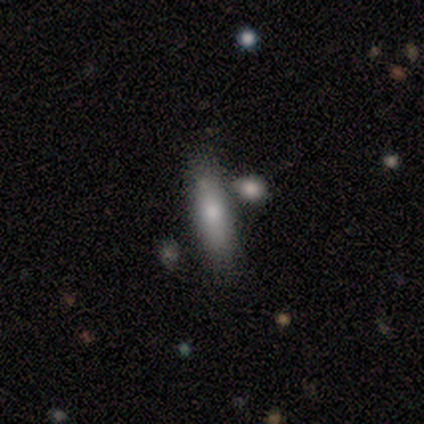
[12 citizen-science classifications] smooth_or_featured: smooth (p=0.67) [alt: featured or disk p=0.33]
how_rounded: in between (p=0.50) [tied with: cigar-shaped p=0.50]
merging: none (p=0.75) [alt: minor disturbance p=0.17]